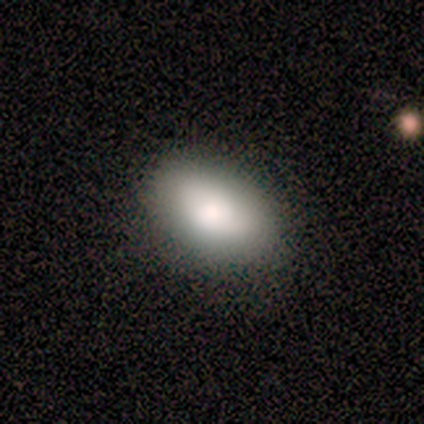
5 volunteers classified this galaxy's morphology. Smooth or featured: smooth — 80% (star or artifact — 20%)
How rounded: in between — 100%
Merging: none — 75% (minor disturbance — 25%)